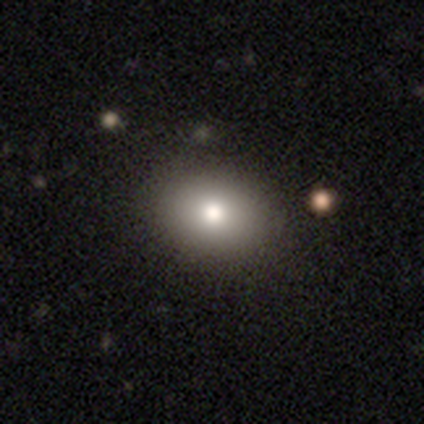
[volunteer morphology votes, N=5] type=smooth (80%); roundness=in between (75%); merging=none (100%).